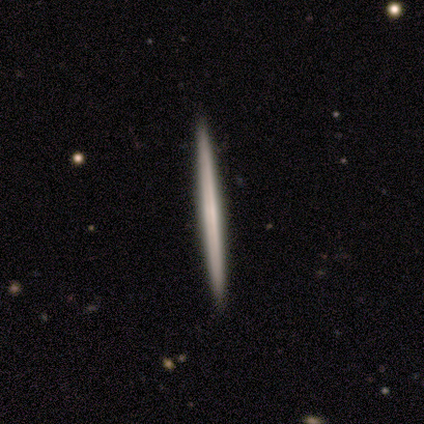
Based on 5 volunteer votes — featured or disk 60%, smooth 40%, star or artifact 0%. Down the decision tree: edge-on disk — yes (100%); edge-on bulge — none (100%); merging — none (80%).